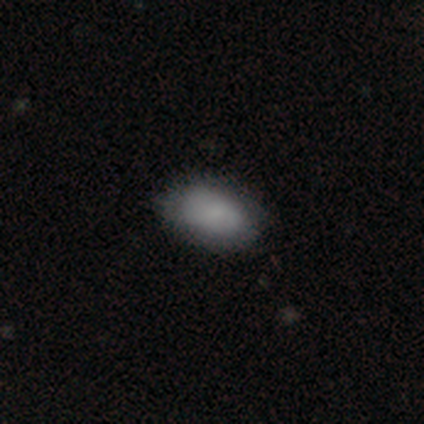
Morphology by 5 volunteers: This is clearly a smooth galaxy (100%). How rounded: clearly in between (100%). Merging: likely minor disturbance (60%).